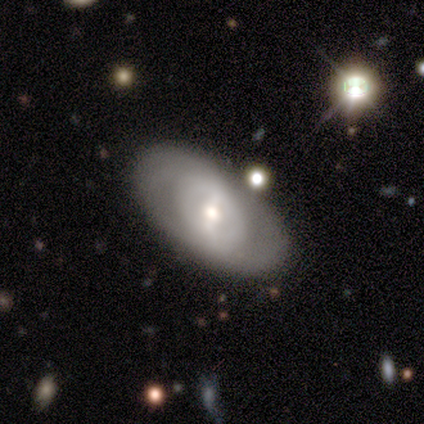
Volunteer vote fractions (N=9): A featured or disk galaxy (78%) with a weak bar (43%), no spiral arms (71%) and a moderate central bulge (57%). Merging: none (67%).